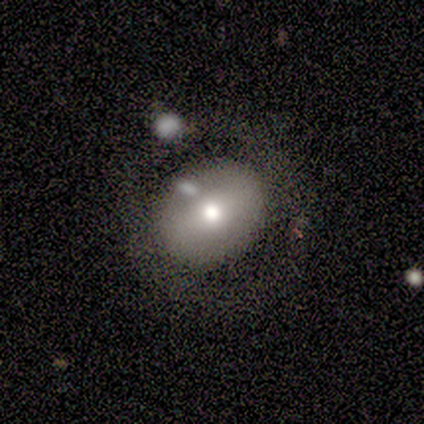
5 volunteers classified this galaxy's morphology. A featured or disk galaxy (60%) with a strong bar (67%), no spiral arms (100%) and a large central bulge (33%, tied with moderate and small). Merging: none (100%).